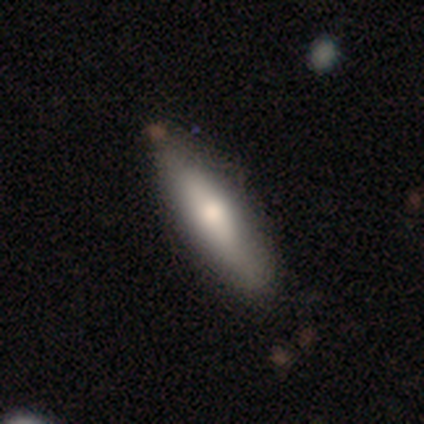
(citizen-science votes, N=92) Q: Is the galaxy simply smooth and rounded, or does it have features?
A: smooth — 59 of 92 (64%).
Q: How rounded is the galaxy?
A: cigar-shaped — 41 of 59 (69%).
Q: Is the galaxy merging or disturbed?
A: none — 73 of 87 (84%).